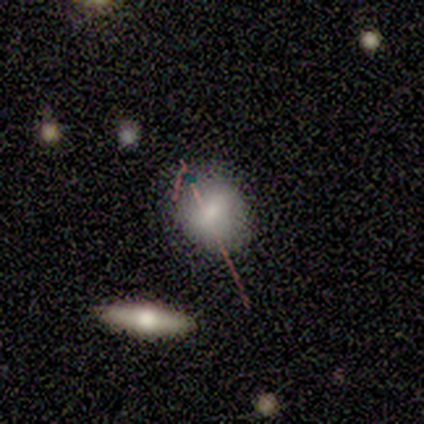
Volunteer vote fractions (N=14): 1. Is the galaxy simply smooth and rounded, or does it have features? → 86% smooth, 7% featured or disk, 7% star or artifact.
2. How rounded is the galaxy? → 50% round (tied), 50% in between (tied), 0% cigar-shaped.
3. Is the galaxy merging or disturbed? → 85% none, 15% minor disturbance, 0% major disturbance, 0% merger.